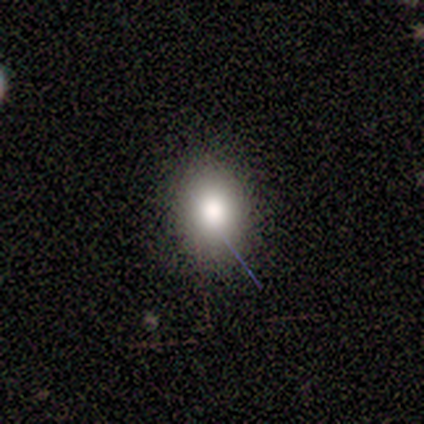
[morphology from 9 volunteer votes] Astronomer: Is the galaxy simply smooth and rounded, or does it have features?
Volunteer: smooth — 78%.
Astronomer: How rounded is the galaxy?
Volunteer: in between — 57% (runner-up: round, 43%).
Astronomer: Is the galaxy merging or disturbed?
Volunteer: none — 88%.